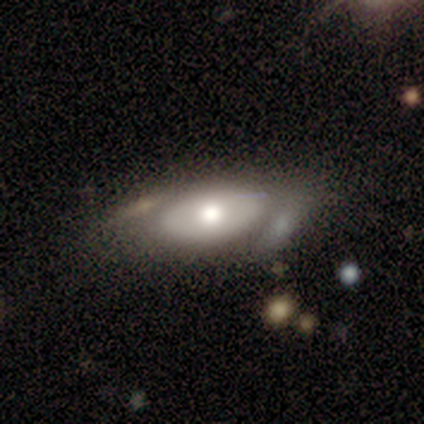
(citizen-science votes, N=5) Smooth or featured? 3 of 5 (60%) said featured or disk. Edge-on disk? 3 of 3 (100%) said no. Bar? 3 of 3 (100%) said no. Spiral arms? 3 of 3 (100%) said no. Bulge size? 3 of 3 (100%) said moderate. Merging? 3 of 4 (75%) said none.